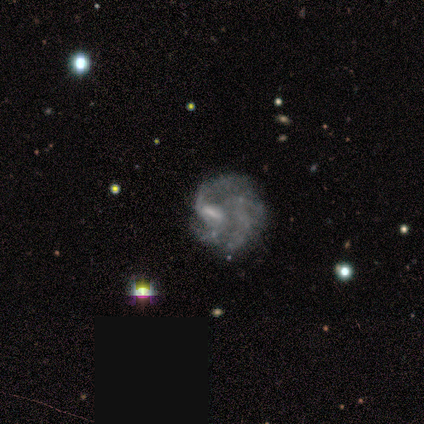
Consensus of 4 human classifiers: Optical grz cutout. It shows a featured or disk galaxy (75%) with no bar (67%), 3 (100%) tight (100%) spiral arms (67%) and a moderate central bulge (67%). Merging: major disturbance (67%).